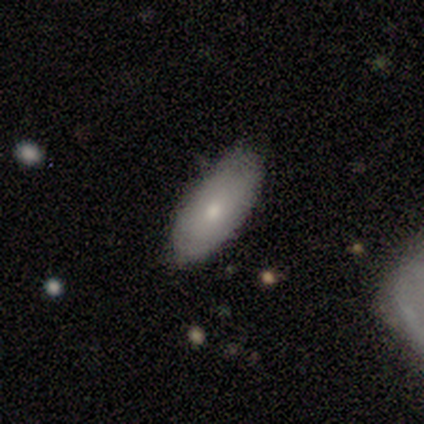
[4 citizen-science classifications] smooth_or_featured: smooth (p=0.50) [tied with: featured or disk p=0.50]
how_rounded: in between (p=1.00)
merging: none (p=0.75) [alt: minor disturbance p=0.25]